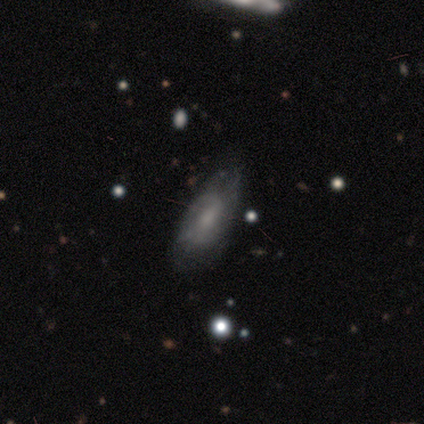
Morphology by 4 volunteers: type=smooth (50%, tied with featured or disk); roundness=in between (100%); merging=none (75%).